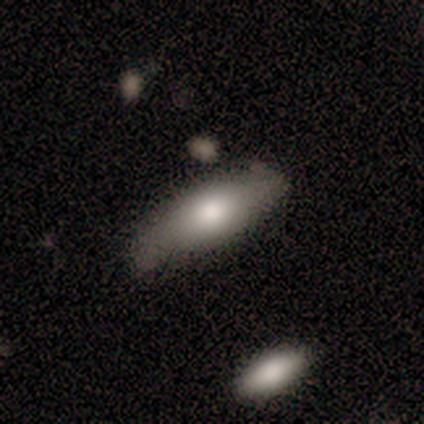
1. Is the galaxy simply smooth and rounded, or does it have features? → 50% smooth (tied), 50% featured or disk (tied), 0% star or artifact.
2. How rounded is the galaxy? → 100% in between, 0% round, 0% cigar-shaped.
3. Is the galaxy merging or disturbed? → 75% none, 25% minor disturbance, 0% major disturbance, 0% merger.